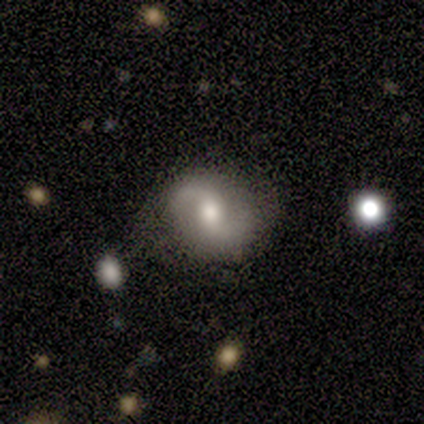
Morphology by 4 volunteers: A featured or disk galaxy (75%) with no bar (67%), 2 (100%) loose (67%) spiral arms (100%) and a moderate central bulge (67%). Merging: none (50%, tied with minor disturbance).